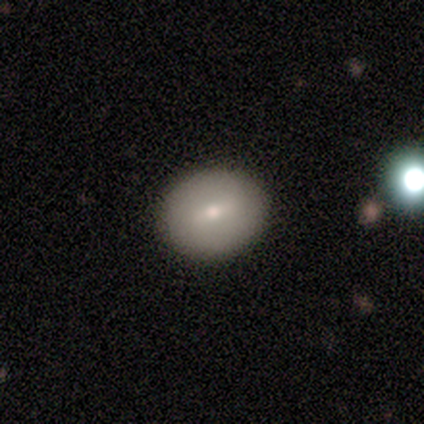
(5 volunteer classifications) A featured or disk galaxy (60%) with no bar (67%), no spiral arms (100%) and a small central bulge (67%).

Vote fractions:
- Smooth or featured? featured or disk: 60% / smooth: 40% / star or artifact: 0%
- Edge-on disk? no: 100% / yes: 0%
- Bar? no: 67% / weak: 33% / strong: 0%
- Spiral arms? no: 100% / yes: 0%
- Bulge size? small: 67% / moderate: 33% / dominant: 0% / large: 0% / none: 0%
- Merging? none: 100% / minor disturbance: 0% / major disturbance: 0% / merger: 0%